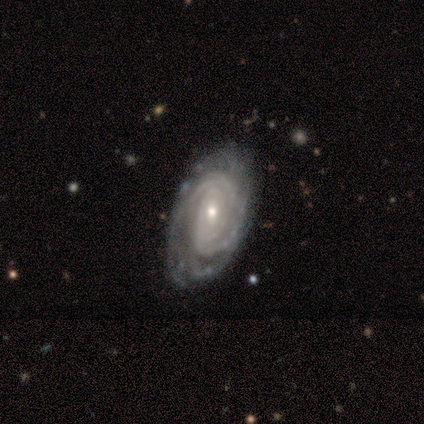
Smooth or featured? 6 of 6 (100%) said featured or disk. Edge-on disk? 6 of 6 (100%) said no. Bar? 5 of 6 (83%) said no. Spiral arms? 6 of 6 (100%) said yes. Spiral winding? 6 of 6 (100%) said tight. Spiral arm count? 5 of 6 (83%) said can't tell. Bulge size? 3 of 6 (50%, tied with small) said moderate. Merging? 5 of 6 (83%) said none.